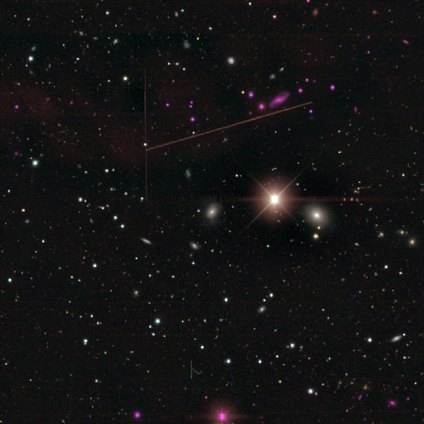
smooth_or_featured: star or artifact (p=0.75) [alt: featured or disk p=0.25]